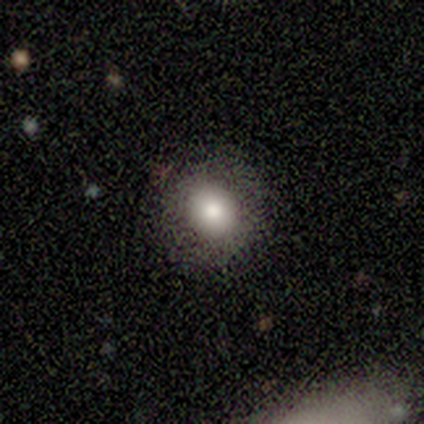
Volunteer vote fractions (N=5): This appears to be a smooth galaxy with no disk features (80%) that is round (75%). Merging: none (100%).